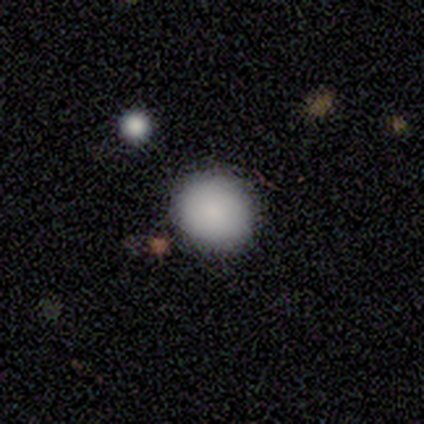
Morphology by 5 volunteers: Smooth or featured? smooth (100%)
How rounded? round (80%)
Merging? none (80%)